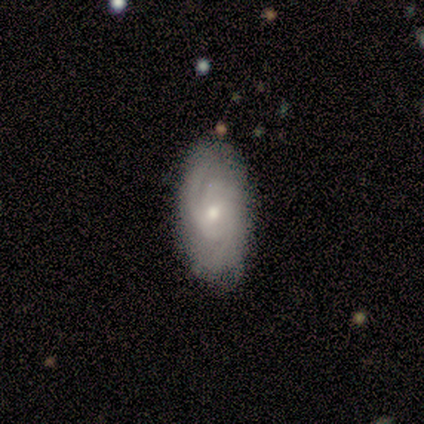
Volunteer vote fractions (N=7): Morphology: type=featured or disk (86%); edge-on=no (100%); bar=weak (50%); spiral arms=yes (100%); winding=tight (50%); arm count=can't tell (50%); bulge=small (67%); merging=none (100%).